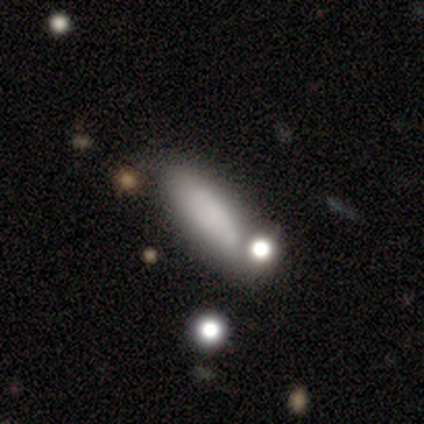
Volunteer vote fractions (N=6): smooth-or-featured: smooth: 83% | featured or disk: 17% | star or artifact: 0%
  how-rounded: in between: 100% | round: 0% | cigar-shaped: 0%
  merging: none: 83% | minor disturbance: 17% | major disturbance: 0% | merger: 0%